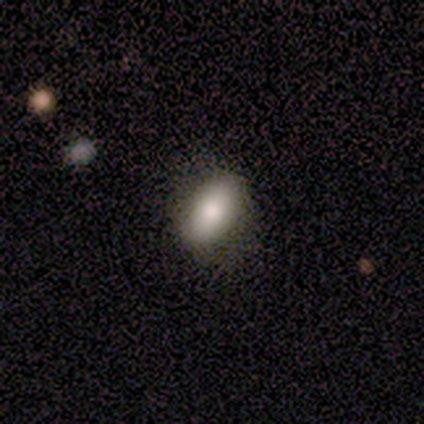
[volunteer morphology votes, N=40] smooth_or_featured: smooth (p=0.85) [alt: featured or disk p=0.12]
how_rounded: in between (p=0.88) [alt: round p=0.06]
merging: none (p=0.74) [alt: minor disturbance p=0.26]